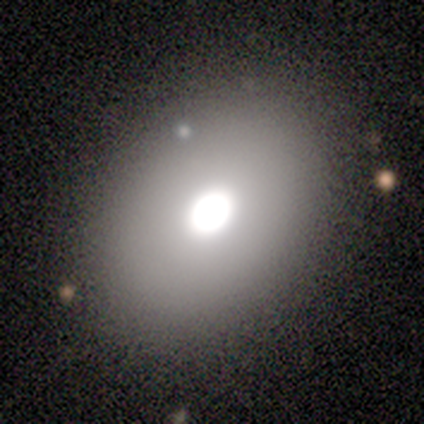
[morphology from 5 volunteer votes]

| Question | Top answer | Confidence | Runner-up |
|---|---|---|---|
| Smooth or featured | smooth | 80% | featured or disk (20%) |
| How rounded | in between | 75% | round (25%) |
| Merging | none | 80% | major disturbance (20%) |